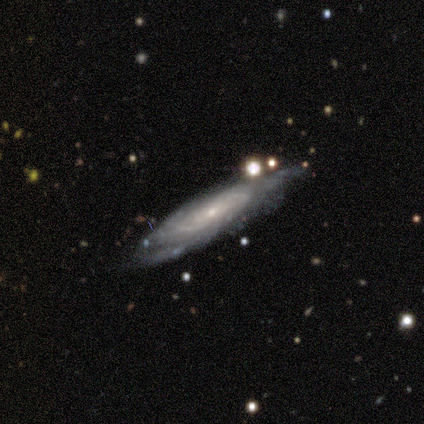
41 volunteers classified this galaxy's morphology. smooth-or-featured: featured or disk: 90% | smooth: 7% | star or artifact: 2%
  disk-edge-on: no: 84% | yes: 16%
    bar: no: 81% | weak: 13% | strong: 6%
    has-spiral-arms: yes: 100% | no: 0%
      spiral-winding: tight: 65% | medium: 26% | loose: 10%
      spiral-arm-count: can't tell: 74% | 2: 13% | 3: 13% | 1: 0% | 4: 0% | more than 4: 0%
    bulge-size: small: 81% | moderate: 19% | dominant: 0% | large: 0% | none: 0%
  merging: none: 70% | minor disturbance: 25% | major disturbance: 5% | merger: 0%